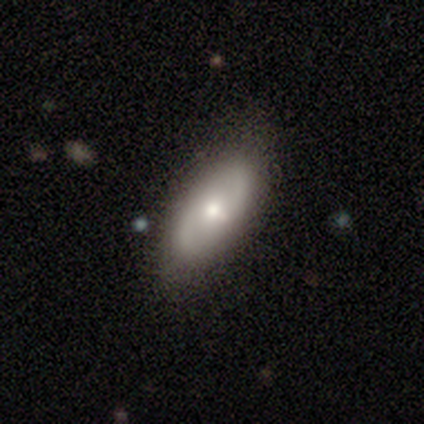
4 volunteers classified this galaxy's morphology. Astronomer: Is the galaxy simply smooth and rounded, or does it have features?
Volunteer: smooth — 50%, tied with featured or disk at 50%.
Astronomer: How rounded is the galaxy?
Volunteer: in between — 50%, tied with cigar-shaped at 50%.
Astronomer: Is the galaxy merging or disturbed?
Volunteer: none — 100%.